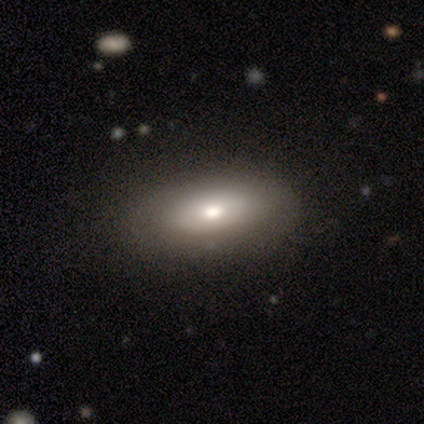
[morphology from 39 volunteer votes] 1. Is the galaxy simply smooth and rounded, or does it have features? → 67% smooth, 18% featured or disk, 15% star or artifact.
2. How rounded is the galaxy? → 81% in between, 15% cigar-shaped, 4% round.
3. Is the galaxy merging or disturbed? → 94% none, 3% minor disturbance, 3% major disturbance, 0% merger.